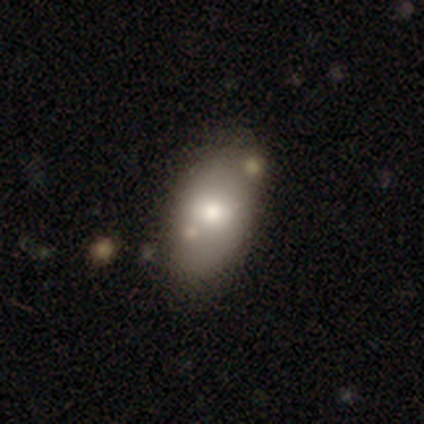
smooth-or-featured: smooth: 73% | featured or disk: 18% | star or artifact: 9%
  how-rounded: in between: 88% | round: 12% | cigar-shaped: 0%
  merging: none: 70% | minor disturbance: 20% | major disturbance: 10% | merger: 0%